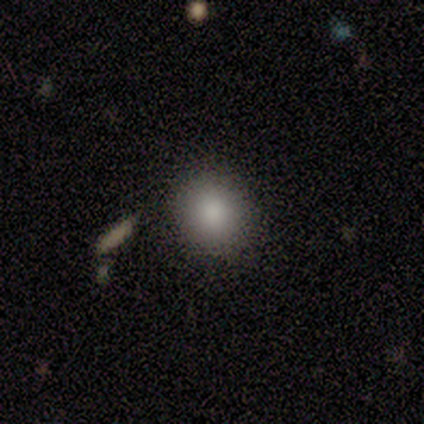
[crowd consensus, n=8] Q: Smooth or featured?
A: smooth (88%); runner-up: featured or disk (12%)
Q: How rounded?
A: round (71%); runner-up: in between (29%)
Q: Merging?
A: none (88%); runner-up: minor disturbance (12%)